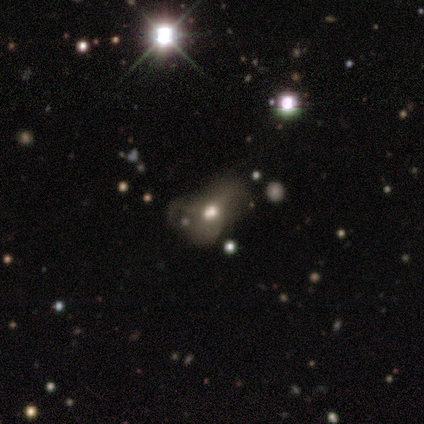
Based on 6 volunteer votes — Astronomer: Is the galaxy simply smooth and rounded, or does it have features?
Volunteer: smooth — 67%.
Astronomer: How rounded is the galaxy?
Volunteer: round — 50%, tied with in between at 50%.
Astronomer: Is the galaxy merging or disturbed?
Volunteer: minor disturbance — 33%, tied with major disturbance at 33%.